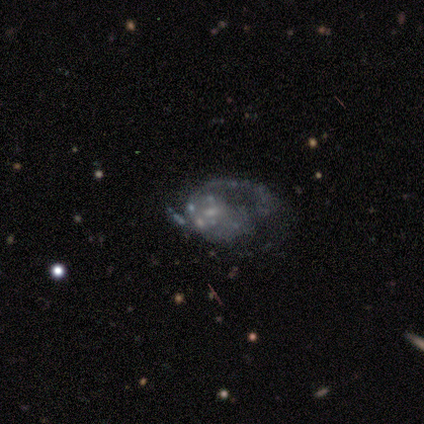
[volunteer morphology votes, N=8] smooth_or_featured: featured or disk (p=0.88) [alt: star or artifact p=0.12]
disk_edge_on: no (p=1.00)
bar: no (p=0.57) [alt: weak p=0.43]
has_spiral_arms: yes (p=0.71) [alt: no p=0.29]
spiral_winding: loose (p=0.60) [alt: medium p=0.40]
spiral_arm_count: 1 (p=0.60) [alt: 2 p=0.40]
bulge_size: small (p=0.57) [alt: none p=0.29]
merging: major disturbance (p=0.57) [alt: none p=0.29]